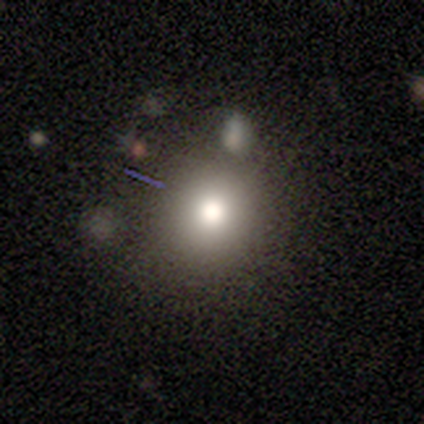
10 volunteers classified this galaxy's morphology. A smooth galaxy with no disk features (90%) that is round (100%).

Vote fractions:
- Smooth or featured? smooth: 90% / star or artifact: 10% / featured or disk: 0%
- How rounded? round: 100% / in between: 0% / cigar-shaped: 0%
- Merging? none: 89% / merger: 11% / minor disturbance: 0% / major disturbance: 0%